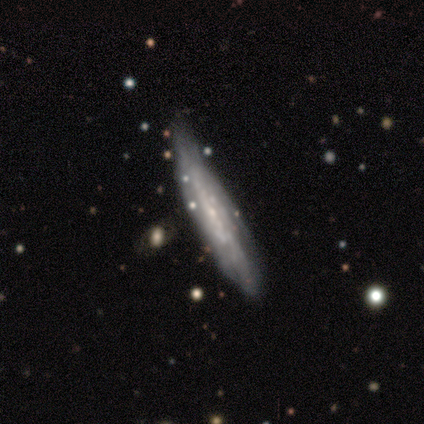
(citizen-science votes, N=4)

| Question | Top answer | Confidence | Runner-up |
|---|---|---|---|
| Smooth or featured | featured or disk | 50% | smooth (25%) |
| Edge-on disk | yes | 50% | tied: no (50%) |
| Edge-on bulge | rounded | 100% | — |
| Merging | none | 67% | minor disturbance (33%) |